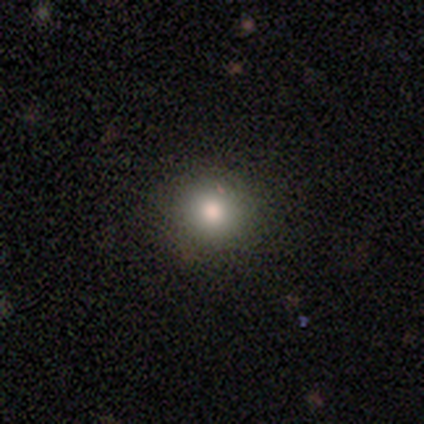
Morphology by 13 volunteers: Smooth or featured? 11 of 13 (85%) said smooth. How rounded? 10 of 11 (91%) said round. Merging? 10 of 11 (91%) said none.